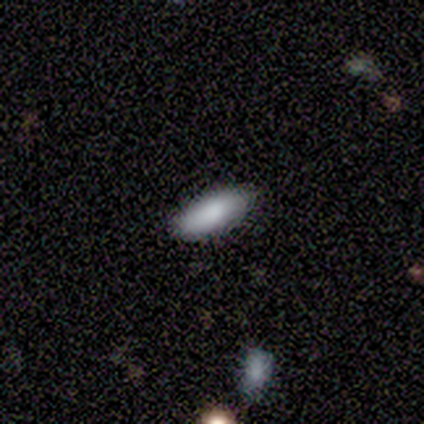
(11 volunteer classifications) Q: Smooth or featured?
A: smooth (91%); runner-up: featured or disk (9%)
Q: How rounded?
A: in between (90%); runner-up: cigar-shaped (10%)
Q: Merging?
A: none (91%); runner-up: minor disturbance (9%)